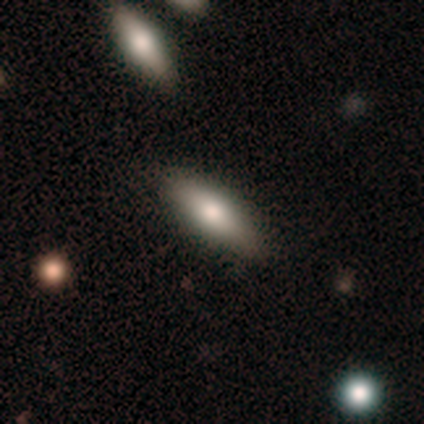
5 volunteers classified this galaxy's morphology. Volunteers were most divided on "smooth or featured": smooth: 60%, featured or disk: 40%, star or artifact: 0%. More confident: merging — none (100%); how rounded — cigar-shaped (67%).